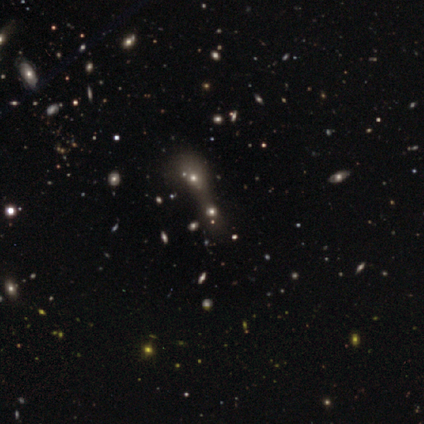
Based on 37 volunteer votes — Smooth or featured? smooth (54%)
How rounded? in between (55%)
Merging? merger (67%)